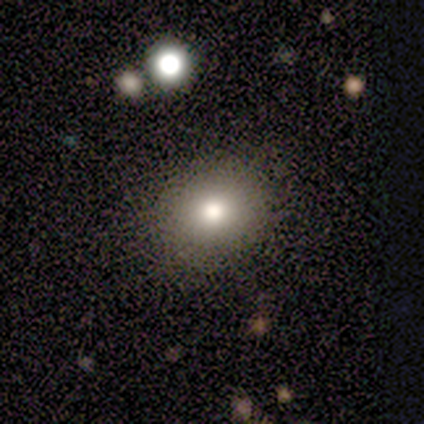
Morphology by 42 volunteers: This is likely a smooth galaxy (74%). How rounded: possibly round (55%). Merging: clearly none (89%).